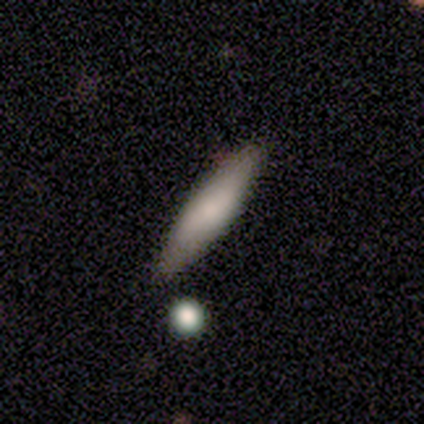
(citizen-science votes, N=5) Smooth or featured? smooth (80%)
How rounded? cigar-shaped (75%)
Merging? none (100%)